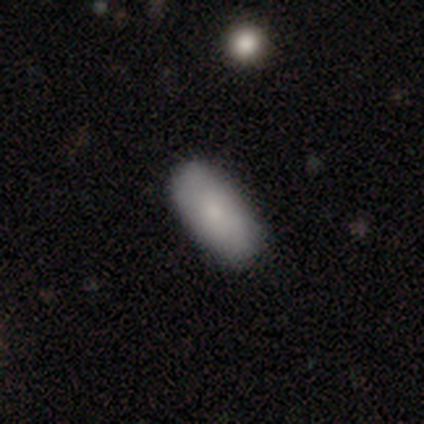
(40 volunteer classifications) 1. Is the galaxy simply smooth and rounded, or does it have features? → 88% smooth, 8% featured or disk, 5% star or artifact.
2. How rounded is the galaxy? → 83% in between, 11% cigar-shaped, 6% round.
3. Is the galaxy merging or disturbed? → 82% none, 11% minor disturbance, 5% major disturbance, 3% merger.